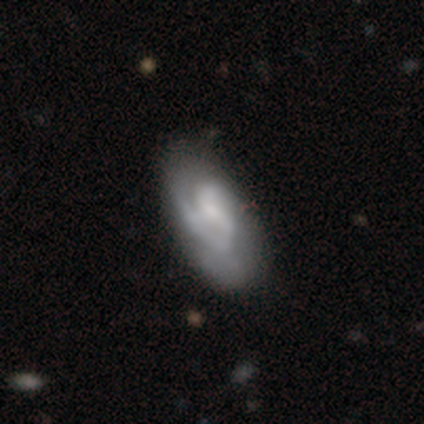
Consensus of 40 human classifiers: A featured or disk galaxy (82%) with a weak bar (52%), 2 (70%) medium (53%) spiral arms (97%) and a small central bulge (52%). Merging: none (42%).